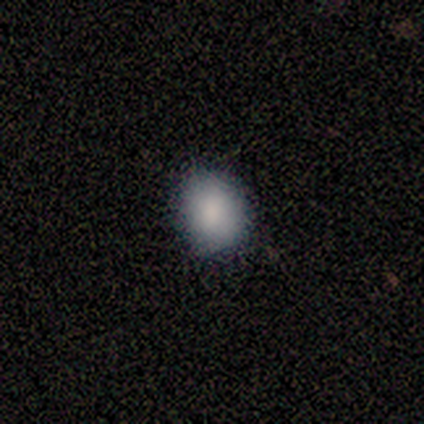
This is likely a smooth galaxy (75%). How rounded: likely round (67%). Merging: clearly none (100%).